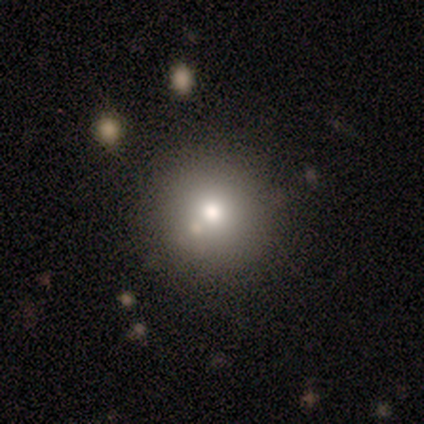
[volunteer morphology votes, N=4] Smooth or featured: star or artifact — 50% (smooth — 25%)